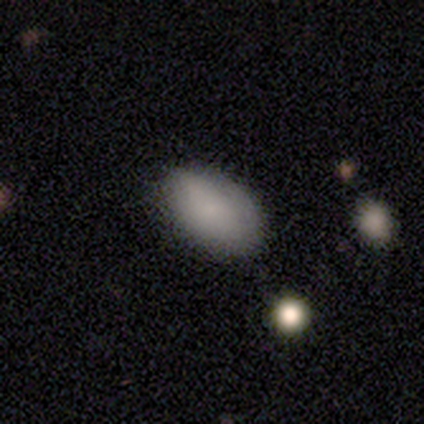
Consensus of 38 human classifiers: Q: Smooth or featured?
A: smooth (87%); runner-up: featured or disk (8%)
Q: How rounded?
A: in between (100%)
Q: Merging?
A: none (81%); runner-up: minor disturbance (17%)